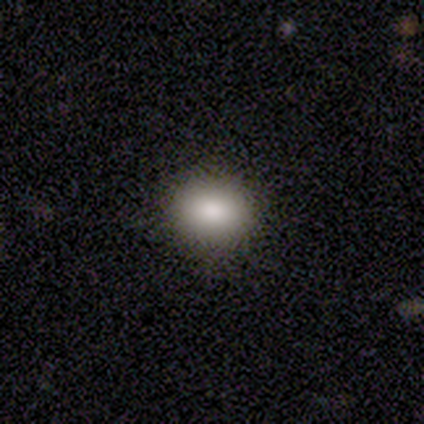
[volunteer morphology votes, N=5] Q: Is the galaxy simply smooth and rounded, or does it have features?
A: smooth — 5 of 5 (100%).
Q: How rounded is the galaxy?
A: round — 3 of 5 (60%).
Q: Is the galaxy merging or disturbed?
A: none — 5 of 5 (100%).